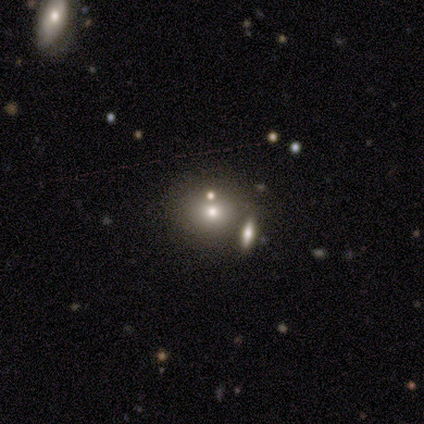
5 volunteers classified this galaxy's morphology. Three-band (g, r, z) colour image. It shows a smooth galaxy with no disk features (40%, tied with star or artifact) that is round (100%). Merging: none (67%).